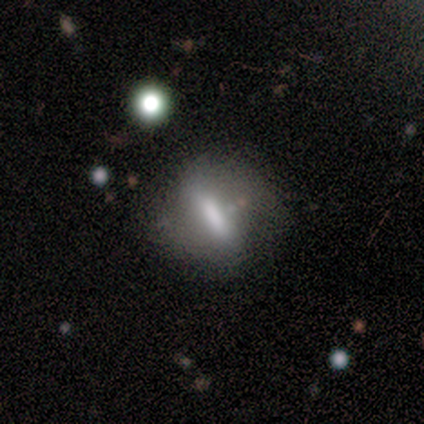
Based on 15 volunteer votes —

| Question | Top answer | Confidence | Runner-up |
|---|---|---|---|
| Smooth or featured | smooth | 47% | featured or disk (33%) |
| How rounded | cigar-shaped | 43% | round (29%) |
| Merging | none | 50% | minor disturbance (33%) |